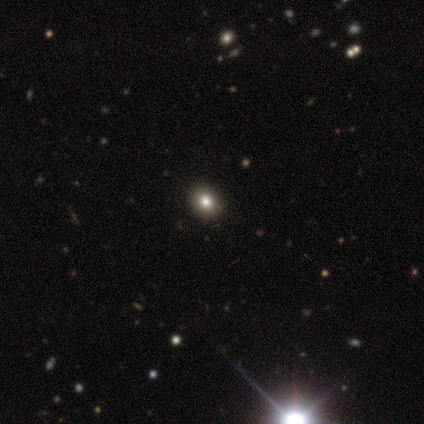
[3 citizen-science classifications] A featured or disk galaxy (67%) with no bar (100%), no spiral arms (100%) and a dominant central bulge (50%, tied with large).

Vote fractions:
- Smooth or featured? featured or disk: 67% / smooth: 33% / star or artifact: 0%
- Edge-on disk? no: 100% / yes: 0%
- Bar? no: 100% / strong: 0% / weak: 0%
- Spiral arms? no: 100% / yes: 0%
- Bulge size? dominant: 50% (tied) / large: 50% (tied) / moderate: 0% / small: 0% / none: 0%
- Merging? none: 100% / minor disturbance: 0% / major disturbance: 0% / merger: 0%